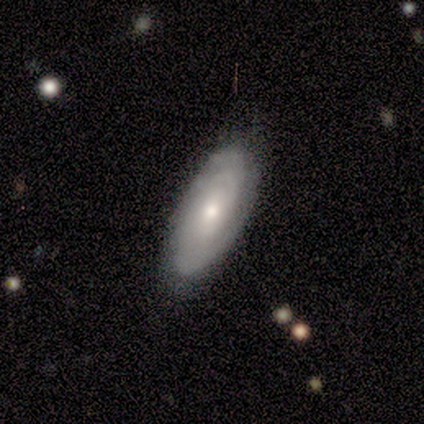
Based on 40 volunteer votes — Smooth or featured? featured or disk (75%)
Edge-on disk? no (97%)
Bar? no (79%)
Spiral arms? yes (86%)
Spiral winding? tight (60%)
Spiral arm count? can't tell (44%)
Bulge size? small (59%)
Merging? none (80%)